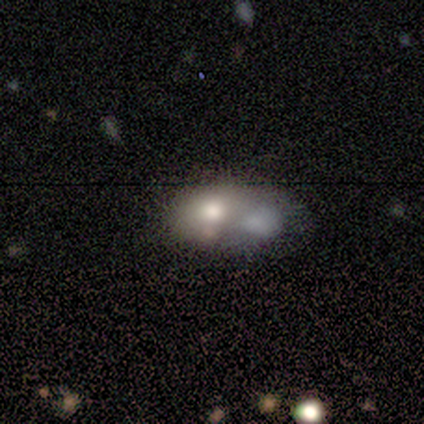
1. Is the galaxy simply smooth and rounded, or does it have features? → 47% featured or disk, 42% smooth, 11% star or artifact.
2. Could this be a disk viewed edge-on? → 89% no, 11% yes.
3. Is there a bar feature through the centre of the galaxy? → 100% no, 0% strong, 0% weak.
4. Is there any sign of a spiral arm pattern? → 100% no, 0% yes.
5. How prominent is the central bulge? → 62% moderate, 38% large, 0% dominant, 0% small, 0% none.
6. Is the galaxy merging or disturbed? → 65% merger, 18% none, 12% major disturbance, 6% minor disturbance.